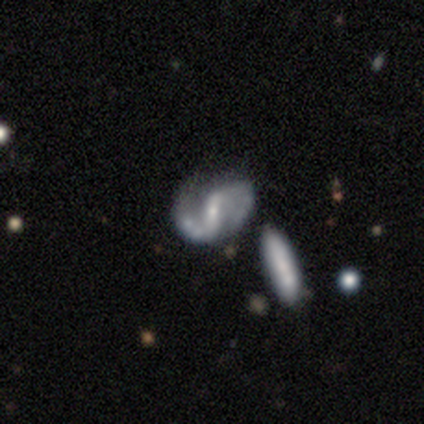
A featured or disk galaxy (67%) with a strong bar (50%), 2 (100%) medium (75%) spiral arms (100%) and a moderate central bulge (50%, tied with small). Merging: none (50%).